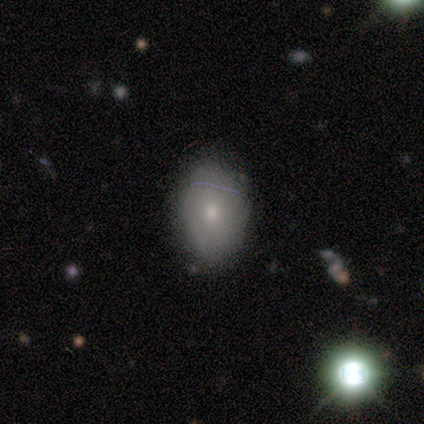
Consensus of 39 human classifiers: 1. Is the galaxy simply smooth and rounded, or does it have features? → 69% smooth, 21% featured or disk, 10% star or artifact.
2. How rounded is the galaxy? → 67% in between, 33% round, 0% cigar-shaped.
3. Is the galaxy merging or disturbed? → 91% none, 9% minor disturbance, 0% major disturbance, 0% merger.